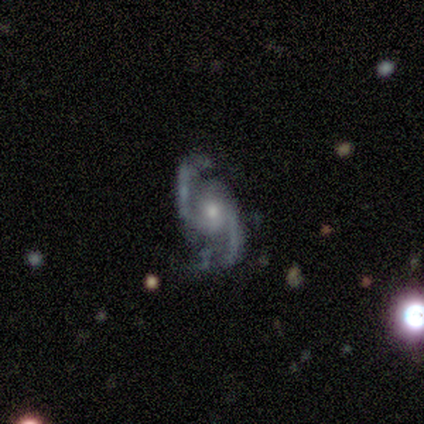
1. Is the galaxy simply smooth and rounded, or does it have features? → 100% featured or disk, 0% smooth, 0% star or artifact.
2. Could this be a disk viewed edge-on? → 100% no, 0% yes.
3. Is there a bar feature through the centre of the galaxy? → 62% no, 25% weak, 12% strong.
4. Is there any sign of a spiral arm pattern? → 75% yes, 25% no.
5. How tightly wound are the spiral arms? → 50% loose, 33% medium, 17% tight.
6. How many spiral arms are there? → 100% 2, 0% 1, 0% 3, 0% 4, 0% more than 4, 0% can't tell.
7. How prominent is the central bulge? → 88% small, 12% moderate, 0% dominant, 0% large, 0% none.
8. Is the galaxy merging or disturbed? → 62% none, 25% major disturbance, 12% minor disturbance, 0% merger.